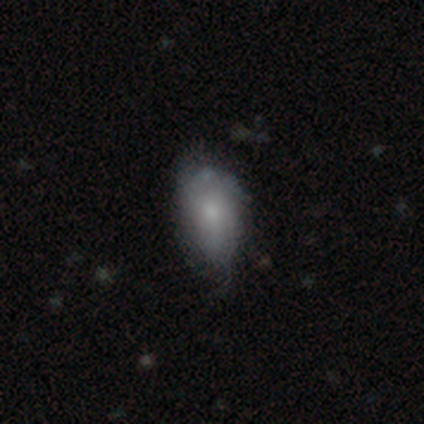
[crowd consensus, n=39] Smooth or featured? smooth (64%)
How rounded? in between (84%)
Merging? none (47%)